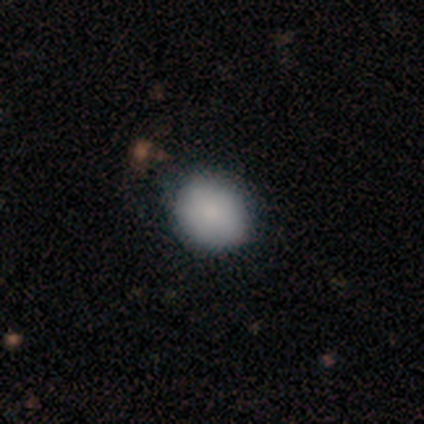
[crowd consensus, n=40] Q: Smooth or featured?
A: smooth (85%); runner-up: star or artifact (10%)
Q: How rounded?
A: round (71%); runner-up: in between (29%)
Q: Merging?
A: none (44%); runner-up: minor disturbance (6%)